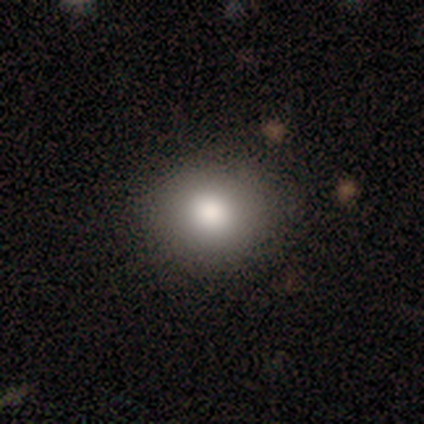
Smooth or featured?
  - smooth: 80% *
  - star or artifact: 20%
  - featured or disk: 0%
How rounded?
  - round: 75% *
  - in between: 25%
  - cigar-shaped: 0%
Merging?
  - none: 100% *
  - minor disturbance: 0%
  - major disturbance: 0%
  - merger: 0%